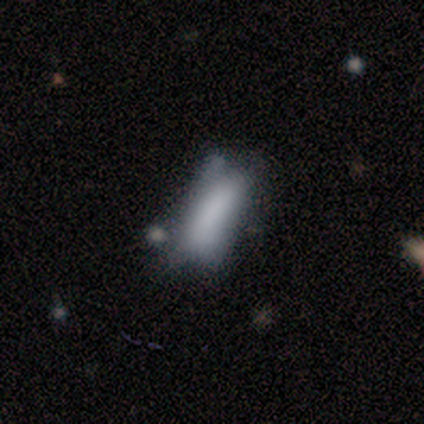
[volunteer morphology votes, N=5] This appears to be a smooth galaxy with no disk features (100%) that is in between round and cigar-shaped (60%). Merging: major disturbance (60%).